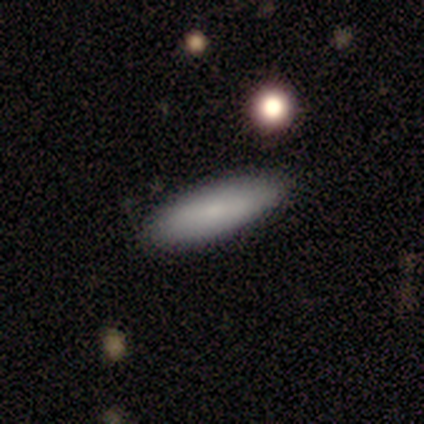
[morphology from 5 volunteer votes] smooth-or-featured: smooth: 60% | featured or disk: 20% | star or artifact: 20%
  how-rounded: cigar-shaped: 67% | in between: 33% | round: 0%
  merging: none: 100% | minor disturbance: 0% | major disturbance: 0% | merger: 0%